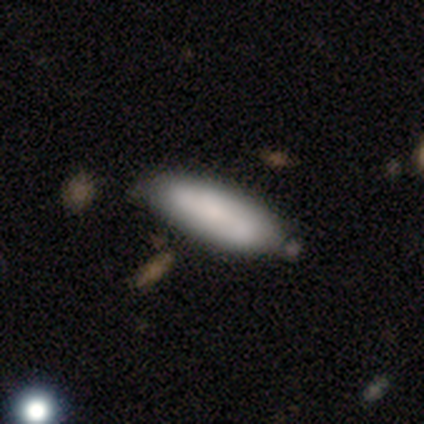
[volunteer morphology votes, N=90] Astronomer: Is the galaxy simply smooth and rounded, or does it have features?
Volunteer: smooth — 74%.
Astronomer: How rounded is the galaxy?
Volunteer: in between — 52% (runner-up: cigar-shaped, 48%).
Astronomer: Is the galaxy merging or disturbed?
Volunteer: none — 76%.